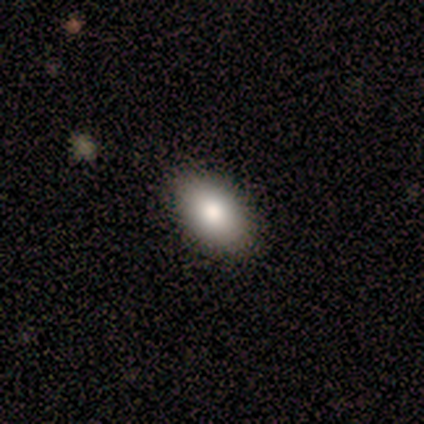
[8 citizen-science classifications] Smooth or featured? smooth (88%)
How rounded? in between (86%)
Merging? none (88%)